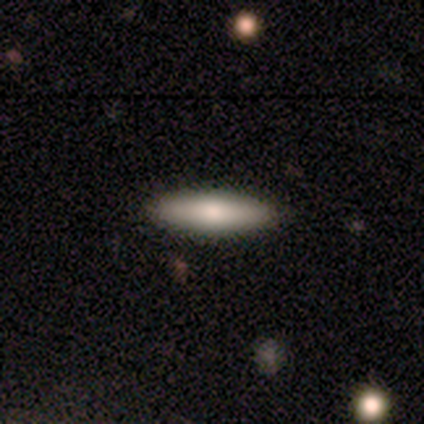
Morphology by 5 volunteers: smooth 60%, featured or disk 40%, star or artifact 0%. Down the decision tree: how rounded — in between (67%); merging — none (100%).